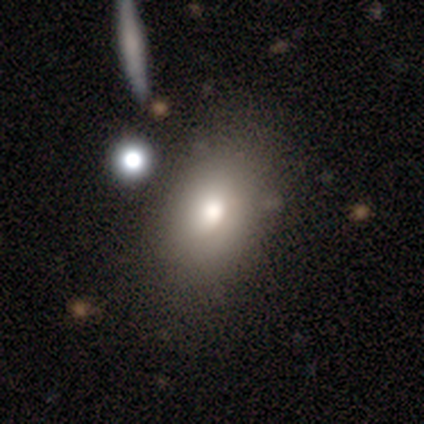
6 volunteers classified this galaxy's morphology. Smooth or featured: smooth — 67% (featured or disk — 33%)
How rounded: in between — 100%
Merging: none — 67% (minor disturbance — 33%)